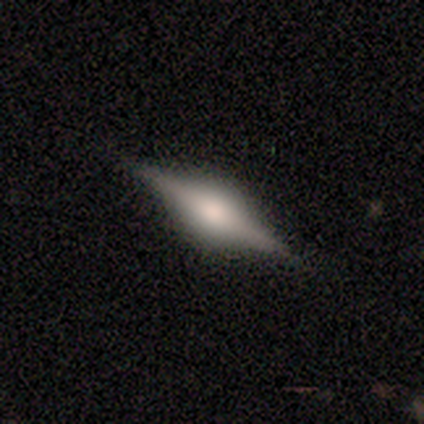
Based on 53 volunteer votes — A featured or disk galaxy (75%) viewed edge-on (100%) with a rounded central bulge (95%). Merging: none (90%).